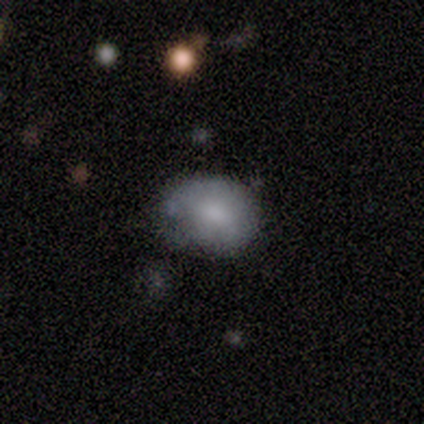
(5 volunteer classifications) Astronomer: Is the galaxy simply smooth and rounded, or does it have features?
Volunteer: smooth — 40%, tied with star or artifact at 40%.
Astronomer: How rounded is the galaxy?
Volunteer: in between — 100%.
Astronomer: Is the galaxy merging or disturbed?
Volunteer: none — 100%.